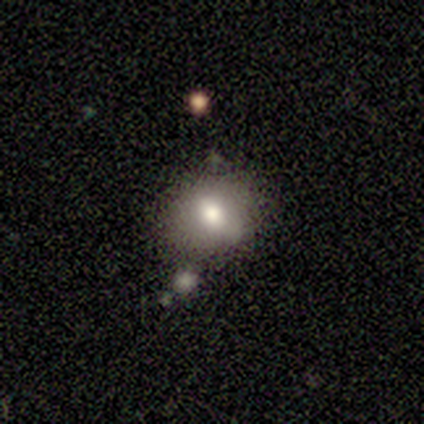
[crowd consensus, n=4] A featured or disk galaxy (50%) with a weak bar (50%, tied with no), no spiral arms (100%) and a large central bulge (50%, tied with moderate). Merging: none (67%).